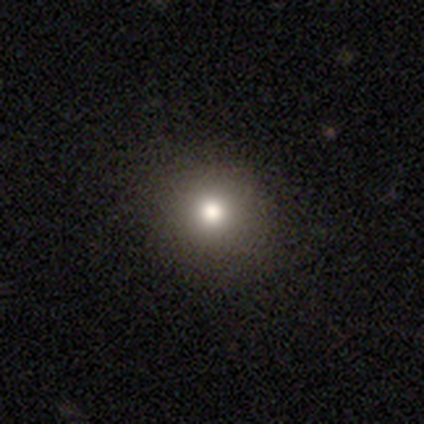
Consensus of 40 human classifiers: smooth_or_featured: smooth (p=0.75) [alt: star or artifact p=0.20]
how_rounded: round (p=0.90) [alt: in between p=0.10]
merging: none (p=0.91) [alt: minor disturbance p=0.09]